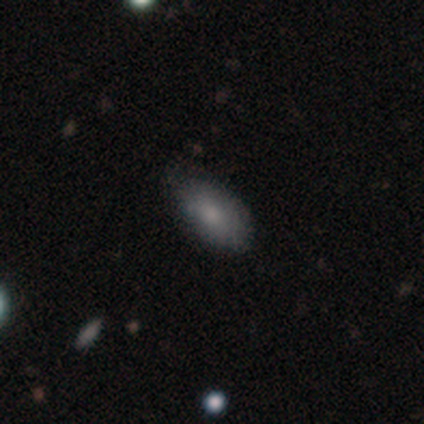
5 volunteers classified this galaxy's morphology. Smooth or featured? 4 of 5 (80%) said smooth. How rounded? 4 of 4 (100%) said in between. Merging? 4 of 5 (80%) said none.